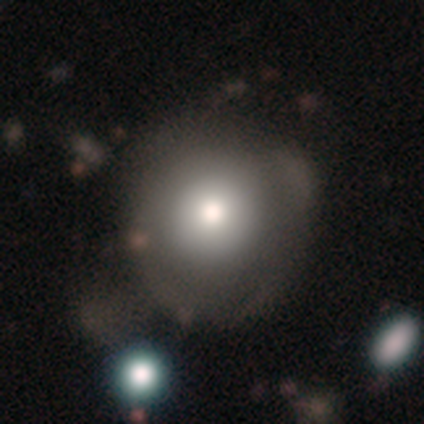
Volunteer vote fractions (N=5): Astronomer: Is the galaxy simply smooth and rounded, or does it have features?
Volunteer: smooth — 80%.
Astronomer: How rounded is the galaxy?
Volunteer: round — 75%.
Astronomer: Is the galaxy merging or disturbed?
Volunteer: minor disturbance — 60% (runner-up: none, 40%).